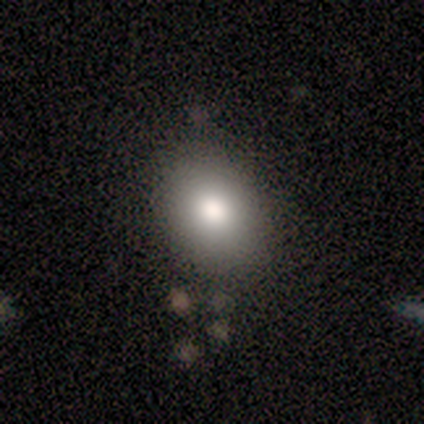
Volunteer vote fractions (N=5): Volunteers were most divided on "how rounded": round: 75%, in between: 25%, cigar-shaped: 0%. More confident: merging — none (100%); smooth or featured — smooth (80%).